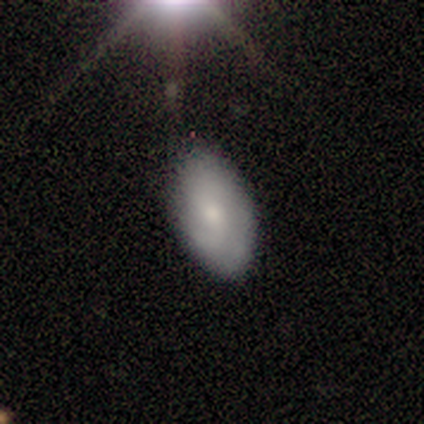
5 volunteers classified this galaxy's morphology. This is likely a featured or disk galaxy (60%). It is clearly not viewed edge-on (100%). Bar: likely no (67%). Spiral arm pattern: likely yes (67%). Spiral arm count: possibly 2 (50%, tied with can't tell). Spiral winding: possibly tight (50%, tied with loose). Central bulge: clearly small (100%). Merging: likely none (60%).